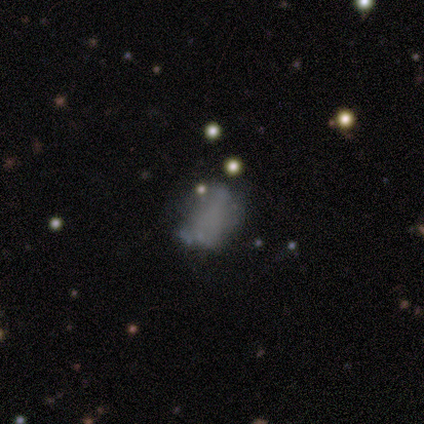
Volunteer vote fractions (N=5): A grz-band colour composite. It shows a smooth galaxy with no disk features (60%) that is in between round and cigar-shaped (100%). Merging: major disturbance (50%).